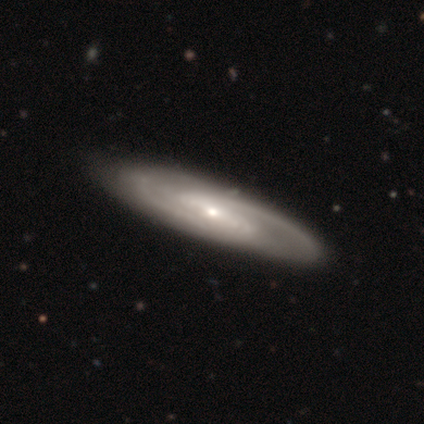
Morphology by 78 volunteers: A featured or disk galaxy (85%) with a strong bar (45%), 2 (88%) medium (61%) spiral arms (97%) and a small central bulge (67%).

Vote fractions:
- Smooth or featured? featured or disk: 85% / smooth: 15% / star or artifact: 0%
- Edge-on disk? no: 88% / yes: 12%
- Bar? strong: 45% / weak: 33% / no: 22%
- Spiral arms? yes: 97% / no: 3%
- Spiral winding? medium: 61% / tight: 29% / loose: 11%
- Spiral arm count? 2: 88% / 3: 4% / more than 4: 4% / can't tell: 4% / 4: 2% / 1: 0%
- Bulge size? small: 67% / moderate: 24% / large: 5% / none: 3% / dominant: 0%
- Merging? none: 77% / minor disturbance: 10% / major disturbance: 4% / merger: 0%